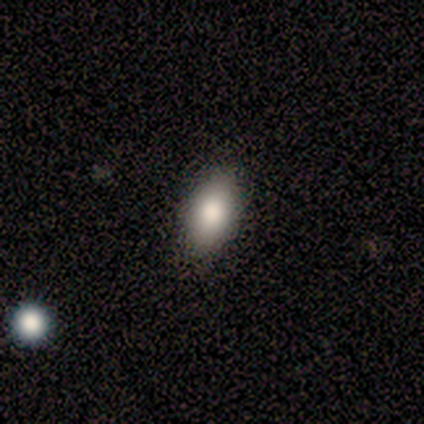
This is clearly a smooth galaxy (100%). How rounded: clearly in between (100%). Merging: clearly none (80%).